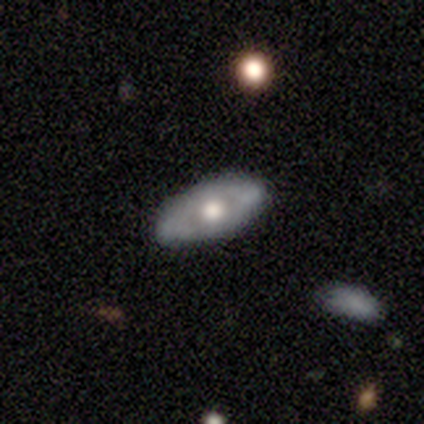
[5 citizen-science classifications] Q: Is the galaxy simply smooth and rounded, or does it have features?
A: featured or disk — 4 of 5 (80%).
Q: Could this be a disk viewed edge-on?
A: no — 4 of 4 (100%).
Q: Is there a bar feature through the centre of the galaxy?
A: no — 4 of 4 (100%).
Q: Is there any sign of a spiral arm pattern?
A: no — 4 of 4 (100%).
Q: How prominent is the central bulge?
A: large — 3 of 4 (75%).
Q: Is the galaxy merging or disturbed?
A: none — 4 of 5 (80%).